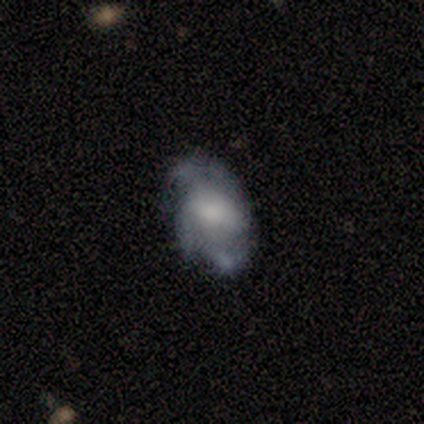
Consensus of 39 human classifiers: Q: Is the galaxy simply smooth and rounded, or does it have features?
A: featured or disk — 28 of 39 (72%).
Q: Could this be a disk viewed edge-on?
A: no — 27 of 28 (96%).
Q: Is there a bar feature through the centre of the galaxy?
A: weak — 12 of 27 (44%).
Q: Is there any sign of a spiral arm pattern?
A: yes — 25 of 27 (93%).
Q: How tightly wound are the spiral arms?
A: medium — 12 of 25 (48%).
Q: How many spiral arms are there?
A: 3 — 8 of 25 (32%, tied with can't tell).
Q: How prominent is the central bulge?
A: moderate — 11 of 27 (41%).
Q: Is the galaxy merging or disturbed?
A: none — 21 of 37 (57%).